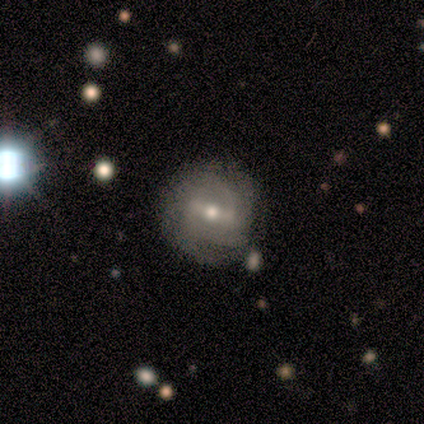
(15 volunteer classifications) Q: Smooth or featured?
A: featured or disk (87%); runner-up: smooth (13%)
Q: Edge-on disk?
A: no (100%)
Q: Bar?
A: weak (85%); runner-up: strong (15%)
Q: Spiral arms?
A: yes (92%); runner-up: no (8%)
Q: Spiral winding?
A: tight (58%); runner-up: medium (33%)
Q: Spiral arm count?
A: 2 (50%); runner-up: can't tell (42%)
Q: Bulge size?
A: moderate (46%); tied with: small (46%)
Q: Merging?
A: none (87%); runner-up: major disturbance (13%)